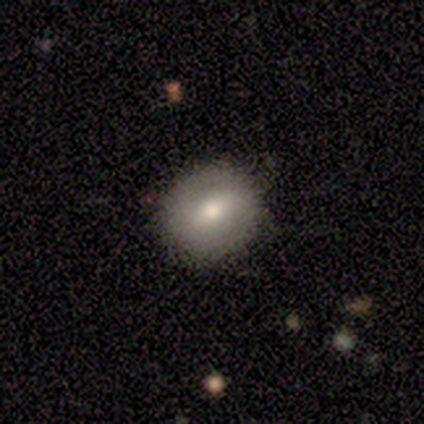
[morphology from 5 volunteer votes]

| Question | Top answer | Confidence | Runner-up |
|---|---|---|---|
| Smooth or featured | smooth | 80% | featured or disk (20%) |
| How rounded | round | 100% | — |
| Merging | none | 80% | major disturbance (20%) |